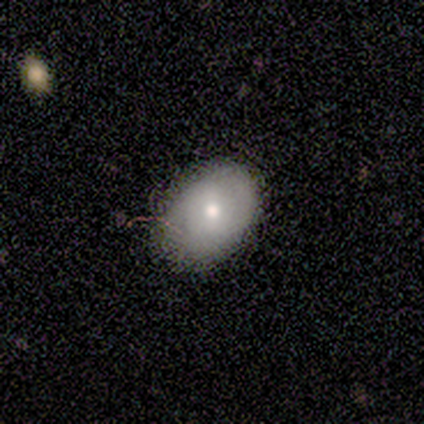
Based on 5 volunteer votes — This is clearly a smooth galaxy (80%). How rounded: clearly in between (100%). Merging: clearly none (100%).